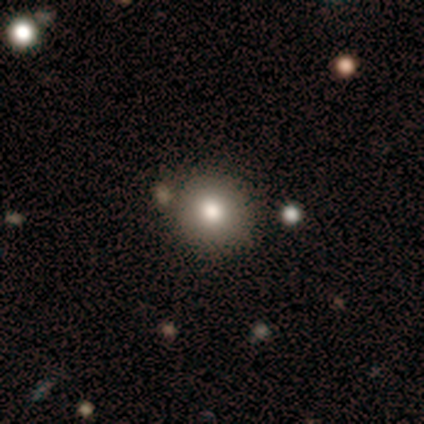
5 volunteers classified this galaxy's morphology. Q: Smooth or featured?
A: smooth (100%)
Q: How rounded?
A: round (80%); runner-up: in between (20%)
Q: Merging?
A: none (80%); runner-up: minor disturbance (20%)